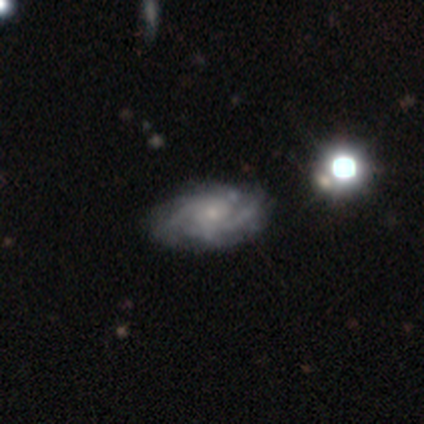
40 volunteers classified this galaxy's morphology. Smooth or featured: featured or disk — 88% (smooth — 10%)
Edge-on disk: no — 100%
Bar: no — 69% (weak — 29%)
Spiral arms: yes — 100%
Spiral winding: medium — 49% (tight — 40%)
Spiral arm count: 2 — 43% (can't tell — 26%)
Bulge size: small — 66% (moderate — 20%)
Merging: none — 28% (minor disturbance — 26%)